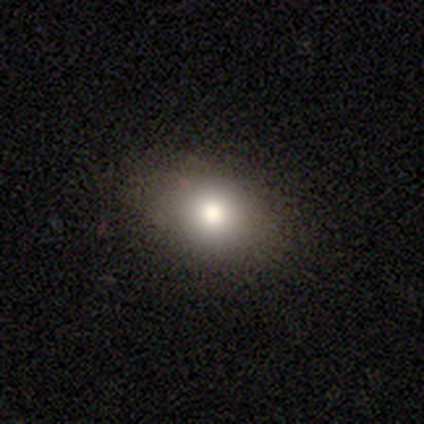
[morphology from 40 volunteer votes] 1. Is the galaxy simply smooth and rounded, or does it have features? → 85% smooth, 8% featured or disk, 8% star or artifact.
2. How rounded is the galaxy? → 71% in between, 29% round, 0% cigar-shaped.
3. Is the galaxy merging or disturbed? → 89% none, 5% minor disturbance, 5% major disturbance, 0% merger.